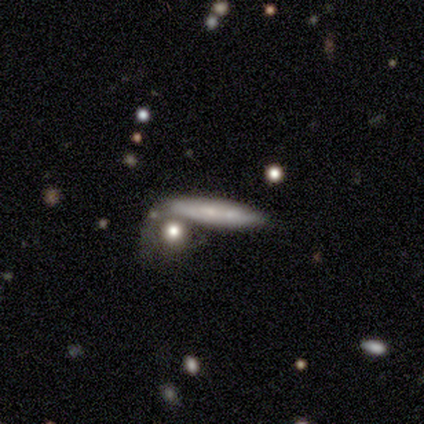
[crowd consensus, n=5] Smooth or featured? 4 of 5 (80%) said smooth. How rounded? 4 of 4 (100%) said cigar-shaped. Merging? 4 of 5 (80%) said none.